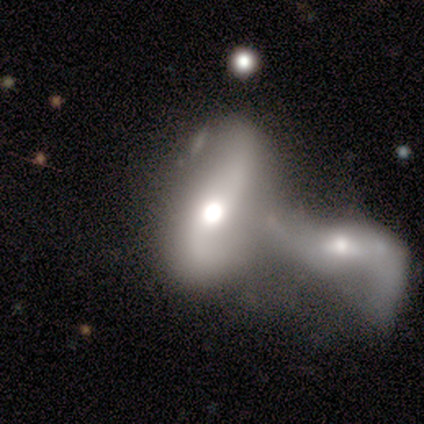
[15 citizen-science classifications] Smooth or featured? smooth (53%)
How rounded? in between (100%)
Merging? merger (79%)